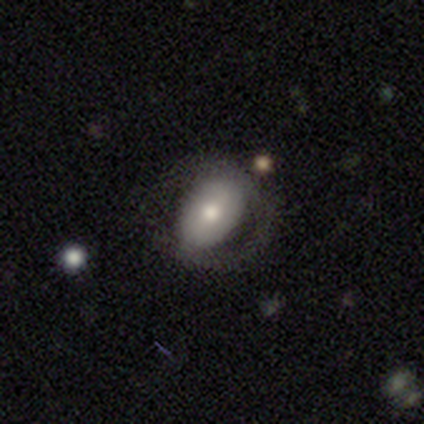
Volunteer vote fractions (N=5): Q: Smooth or featured?
A: smooth (60%); runner-up: featured or disk (40%)
Q: How rounded?
A: in between (67%); runner-up: round (33%)
Q: Merging?
A: none (80%); runner-up: major disturbance (20%)